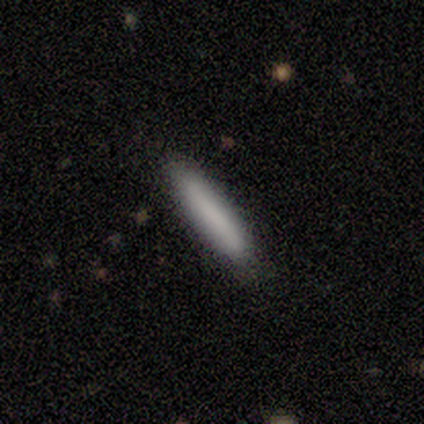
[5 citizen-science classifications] This appears to be a smooth galaxy with no disk features (80%) that is cigar-shaped (100%). Merging: none (100%).